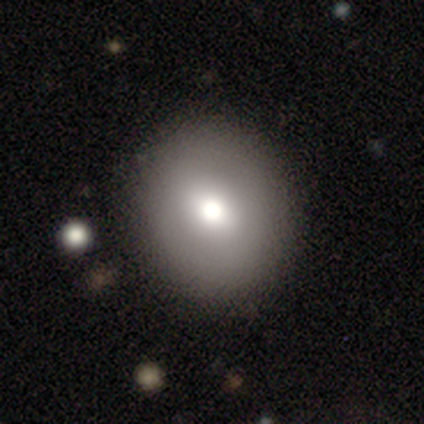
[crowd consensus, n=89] Morphology: type=smooth (67%); roundness=round (88%); merging=none (95%).